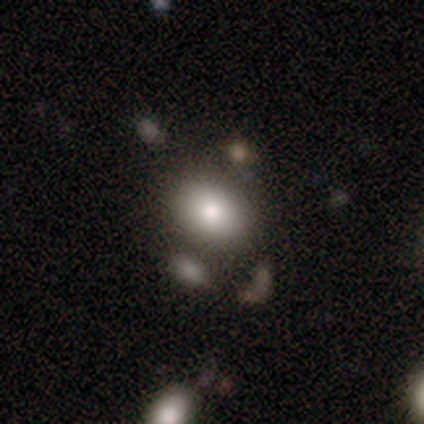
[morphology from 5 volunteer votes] Smooth or featured? 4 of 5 (80%) said smooth. How rounded? 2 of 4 (50%, tied with in between) said round. Merging? 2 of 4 (50%, tied with minor disturbance) said none.